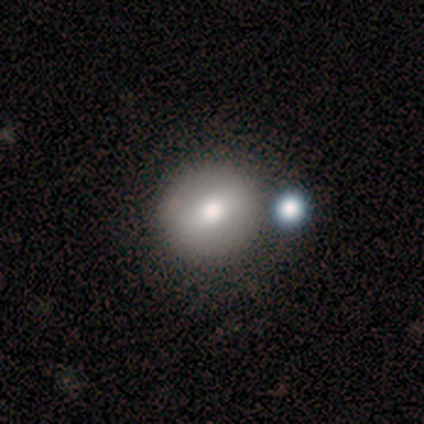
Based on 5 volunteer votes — Volunteers were most divided on "merging": none: 60%, merger: 40%, minor disturbance: 0%, major disturbance: 0%. More confident: how rounded — round (100%); smooth or featured — smooth (80%).